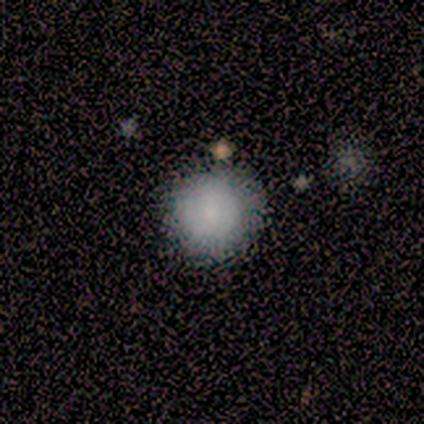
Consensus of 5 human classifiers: Smooth or featured: smooth — 100%
How rounded: round — 100%
Merging: none — 100%